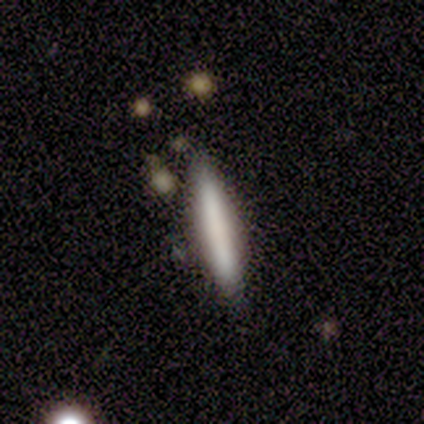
Smooth or featured? 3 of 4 (75%) said smooth. How rounded? 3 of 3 (100%) said cigar-shaped. Merging? 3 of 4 (75%) said none.